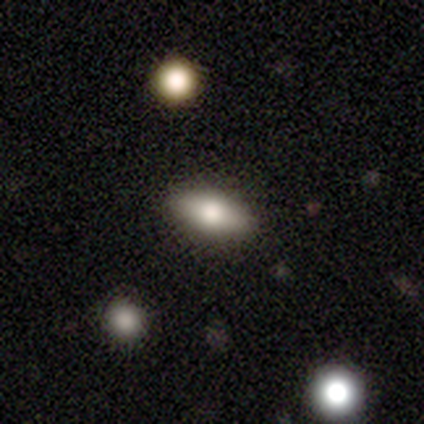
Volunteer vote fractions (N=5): This is clearly a smooth galaxy (100%). How rounded: likely in between (60%). Merging: clearly none (100%).